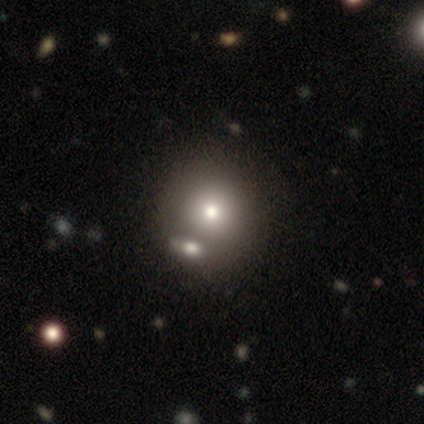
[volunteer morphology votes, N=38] This appears to be a smooth galaxy with no disk features (55%) that is round (90%). Merging: none (55%).